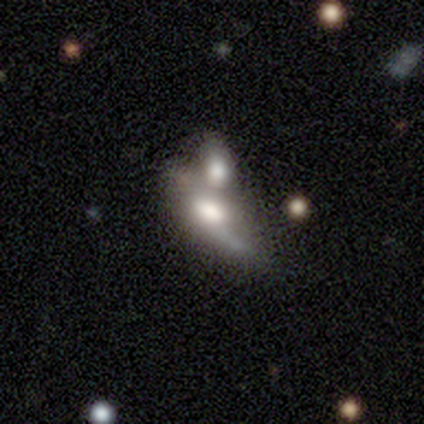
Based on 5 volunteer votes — A smooth galaxy with no disk features (60%) that is in between round and cigar-shaped (67%). Merging: merger (60%).